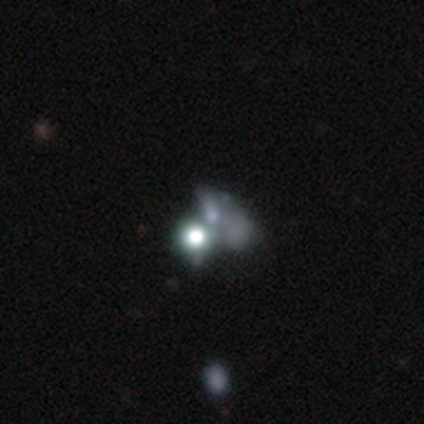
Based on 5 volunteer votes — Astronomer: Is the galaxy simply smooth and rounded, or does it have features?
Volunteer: star or artifact — 60% (runner-up: featured or disk, 40%).